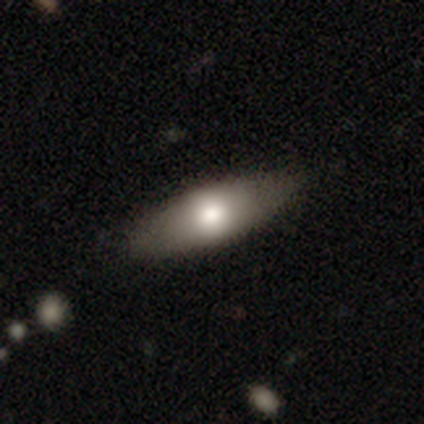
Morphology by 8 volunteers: type=smooth (62%); roundness=in between (60%); merging=none (75%).